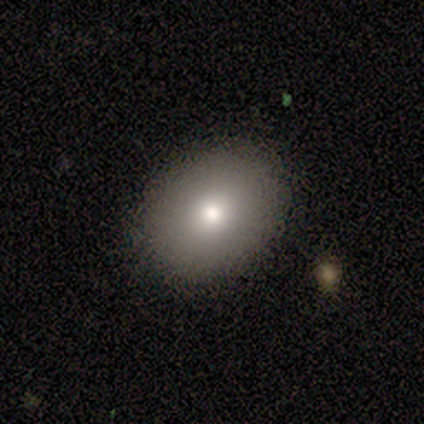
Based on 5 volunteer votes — Smooth or featured?
  - smooth: 80% *
  - star or artifact: 20%
  - featured or disk: 0%
How rounded?
  - round: 100% *
  - in between: 0%
  - cigar-shaped: 0%
Merging?
  - none: 75% *
  - major disturbance: 25%
  - minor disturbance: 0%
  - merger: 0%